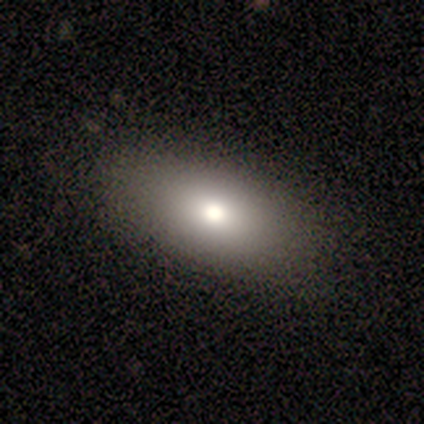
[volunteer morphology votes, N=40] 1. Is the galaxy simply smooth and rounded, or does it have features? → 82% smooth, 12% star or artifact, 5% featured or disk.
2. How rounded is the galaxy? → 97% in between, 3% round, 0% cigar-shaped.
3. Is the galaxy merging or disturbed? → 74% none, 3% merger, 0% minor disturbance, 0% major disturbance.